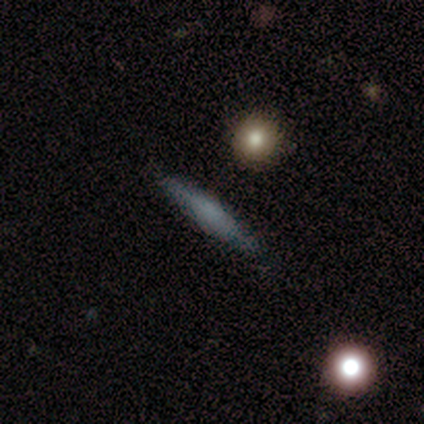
Q: Smooth or featured?
A: smooth (80%); runner-up: featured or disk (20%)
Q: How rounded?
A: cigar-shaped (75%); runner-up: in between (25%)
Q: Merging?
A: none (100%)